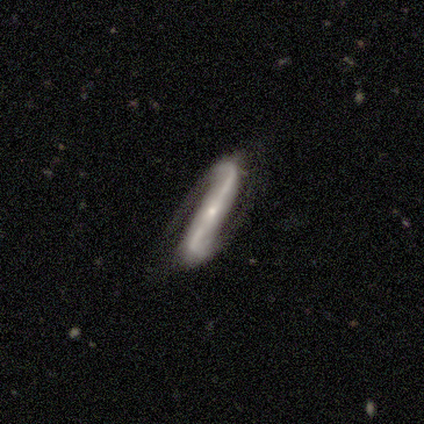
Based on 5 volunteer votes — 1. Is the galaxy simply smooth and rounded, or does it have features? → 80% featured or disk, 20% smooth, 0% star or artifact.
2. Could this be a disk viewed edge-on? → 75% no, 25% yes.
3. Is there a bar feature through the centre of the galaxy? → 100% strong, 0% weak, 0% no.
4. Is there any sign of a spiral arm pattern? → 100% yes, 0% no.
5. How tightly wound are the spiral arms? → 100% medium, 0% tight, 0% loose.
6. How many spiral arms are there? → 100% 2, 0% 1, 0% 3, 0% 4, 0% more than 4, 0% can't tell.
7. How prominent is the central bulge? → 100% small, 0% dominant, 0% large, 0% moderate, 0% none.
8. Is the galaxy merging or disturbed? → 80% none, 20% major disturbance, 0% minor disturbance, 0% merger.